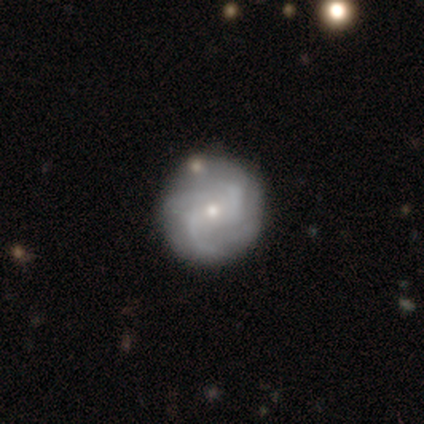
Overall: featured or disk (79%). Edge-on disk: no (100%). Bar: no (61%; weak 26%). Spiral arms: yes (94%). Spiral arm count: 2 (31%; can't tell 28%). Spiral winding: medium (55%; tight 31%). Bulge size: small (61%; moderate 32%). Merging: none (69%).